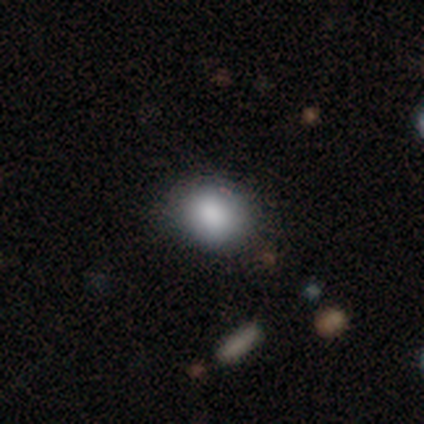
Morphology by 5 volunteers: smooth-or-featured: smooth: 80% | star or artifact: 20% | featured or disk: 0%
  how-rounded: round: 75% | in between: 25% | cigar-shaped: 0%
  merging: none: 75% | minor disturbance: 25% | major disturbance: 0% | merger: 0%